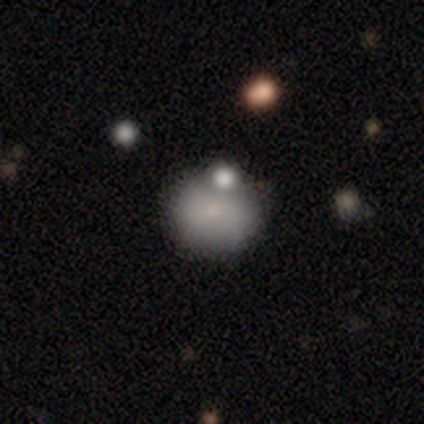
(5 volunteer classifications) Smooth or featured: smooth — 100%
How rounded: round — 80% (in between — 20%)
Merging: none — 40% (tied with minor disturbance — 40%)